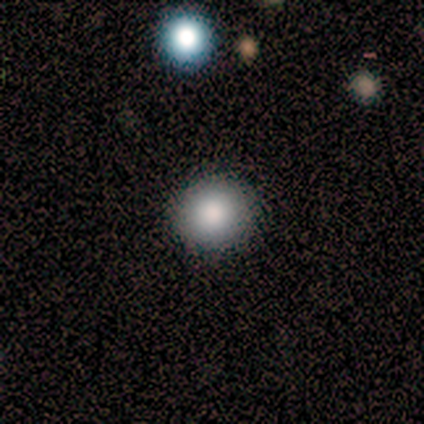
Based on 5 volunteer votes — Q: Smooth or featured?
A: smooth (100%)
Q: How rounded?
A: round (100%)
Q: Merging?
A: none (100%)